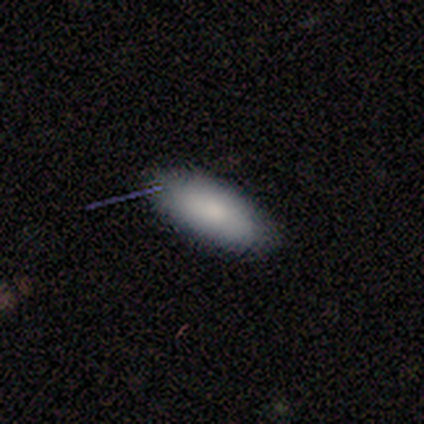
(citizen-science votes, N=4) A smooth galaxy with no disk features (100%) that is in between round and cigar-shaped (75%). Merging: none (100%).